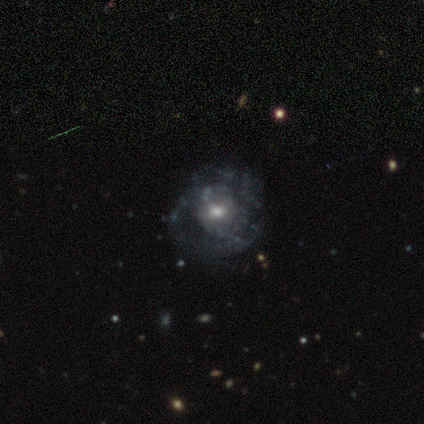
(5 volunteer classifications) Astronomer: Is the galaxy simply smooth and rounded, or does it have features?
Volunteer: featured or disk — 80%.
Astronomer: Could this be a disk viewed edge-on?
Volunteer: no — 100%.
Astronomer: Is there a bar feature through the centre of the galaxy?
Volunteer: no — 100%.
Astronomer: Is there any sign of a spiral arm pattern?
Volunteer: yes — 50%, tied with no at 50%.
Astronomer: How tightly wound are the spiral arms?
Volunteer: tight — 50%, tied with medium at 50%.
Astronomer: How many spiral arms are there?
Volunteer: can't tell — 100%.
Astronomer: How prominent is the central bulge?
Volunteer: moderate — 50%.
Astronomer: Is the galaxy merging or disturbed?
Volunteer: none — 100%.